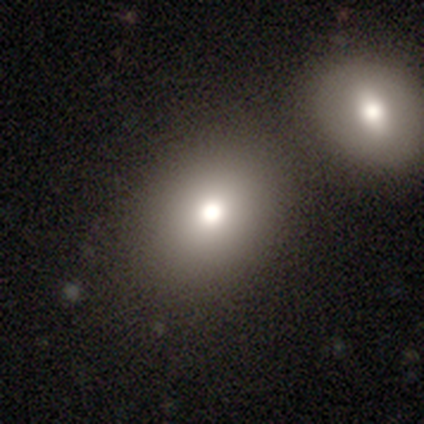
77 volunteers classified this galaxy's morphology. Q: Smooth or featured?
A: smooth (78%); runner-up: featured or disk (13%)
Q: How rounded?
A: round (58%); runner-up: in between (40%)
Q: Merging?
A: merger (39%); runner-up: none (37%)